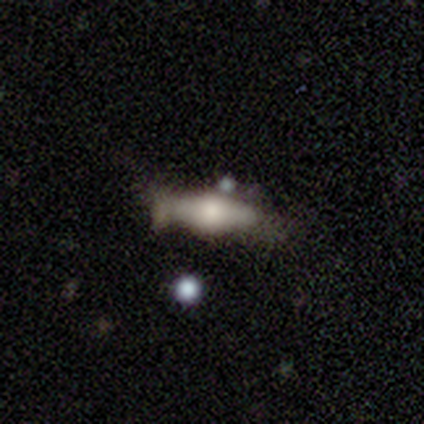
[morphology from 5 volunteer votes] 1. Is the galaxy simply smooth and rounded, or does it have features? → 80% smooth, 20% featured or disk, 0% star or artifact.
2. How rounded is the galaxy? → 75% cigar-shaped, 25% in between, 0% round.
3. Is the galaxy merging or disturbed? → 40% none (tied), 40% minor disturbance (tied), 20% major disturbance, 0% merger.